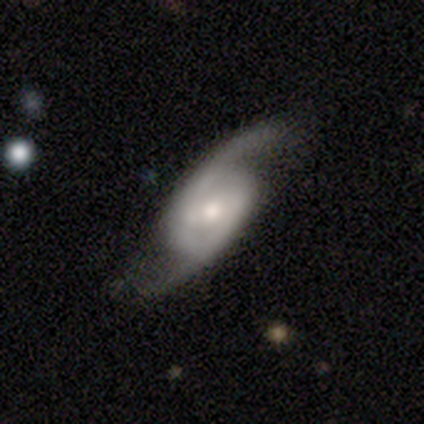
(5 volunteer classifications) smooth_or_featured: featured or disk (p=1.00)
disk_edge_on: no (p=1.00)
bar: weak (p=0.40) [tied with: no p=0.40]
has_spiral_arms: yes (p=1.00)
spiral_winding: loose (p=0.60) [alt: tight p=0.20]
spiral_arm_count: 2 (p=1.00)
bulge_size: large (p=0.40) [tied with: small p=0.40]
merging: none (p=0.80) [alt: major disturbance p=0.20]